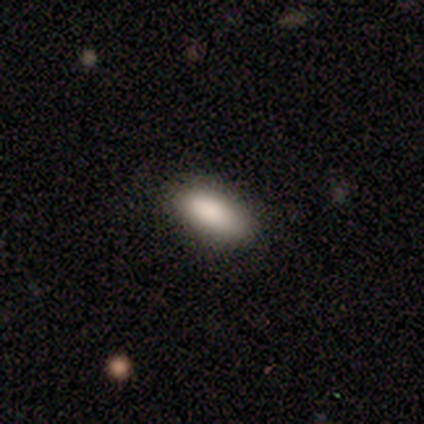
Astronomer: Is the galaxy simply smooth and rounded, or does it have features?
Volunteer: smooth — 80%.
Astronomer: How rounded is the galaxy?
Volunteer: in between — 75%.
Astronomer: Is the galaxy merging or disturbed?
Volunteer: none — 60% (runner-up: minor disturbance, 40%).